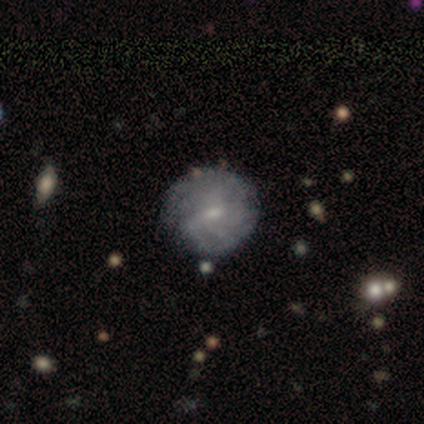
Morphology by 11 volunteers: This is likely a smooth galaxy (64%). How rounded: clearly round (100%). Merging: likely none (60%).